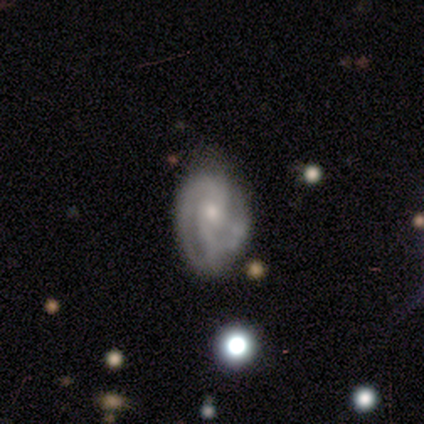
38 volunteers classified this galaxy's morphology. Volunteers were most divided on "merging" (2-way tie): none: 24%, minor disturbance: 24%, major disturbance: 11%, merger: 5%. Remaining: edge-on disk — no (100%); smooth or featured — featured or disk (97%); spiral arms — yes (97%); spiral arm count — 2 (69%); bar — no (54%); bulge size — moderate (54%); spiral winding — tight (44%).